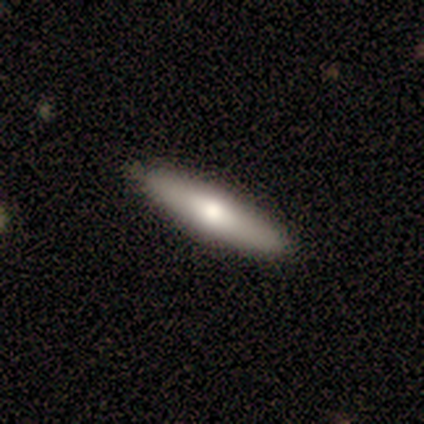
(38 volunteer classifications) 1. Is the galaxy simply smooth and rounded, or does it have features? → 76% smooth, 16% featured or disk, 8% star or artifact.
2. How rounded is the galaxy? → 93% cigar-shaped, 7% in between, 0% round.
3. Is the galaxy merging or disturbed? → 91% none, 6% minor disturbance, 3% merger, 0% major disturbance.